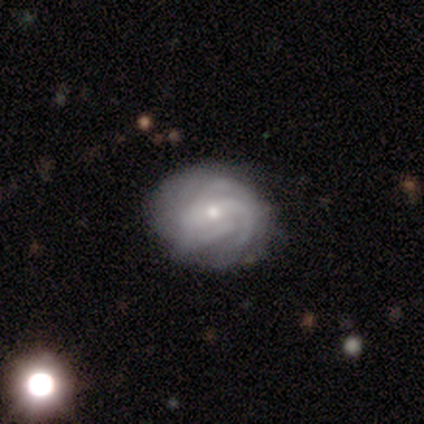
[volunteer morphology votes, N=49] featured or disk 88%, smooth 10%, star or artifact 2%. Down the decision tree: edge-on disk — no (100%); bar — no (72%); spiral arms — yes (95%); spiral arm count — can't tell (51%); spiral winding — tight (61%); bulge size — small (65%); merging — none (71%).